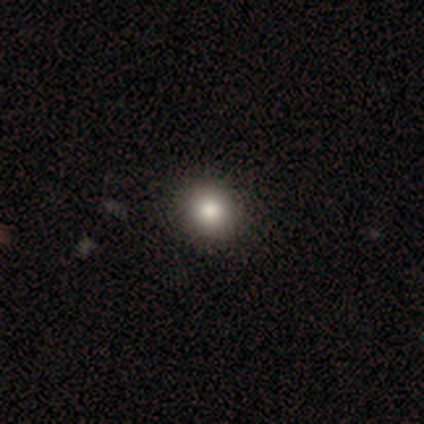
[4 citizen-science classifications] A smooth galaxy with no disk features (75%) that is round (100%).

Vote fractions:
- Smooth or featured? smooth: 75% / star or artifact: 25% / featured or disk: 0%
- How rounded? round: 100% / in between: 0% / cigar-shaped: 0%
- Merging? minor disturbance: 67% / none: 33% / major disturbance: 0% / merger: 0%